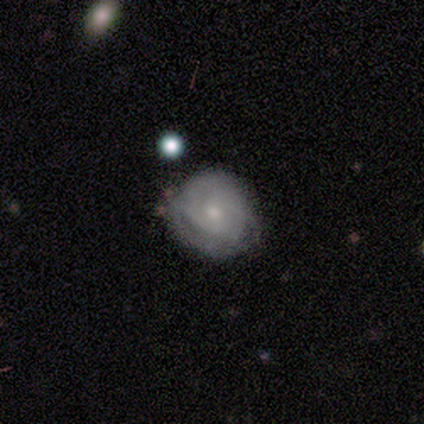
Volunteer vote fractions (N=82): This is possibly a featured or disk galaxy (60%). It is clearly not viewed edge-on (98%). Bar: likely no (73%). Spiral arm pattern: likely yes (69%). Spiral arm count: possibly can't tell (48%). Spiral winding: likely tight (73%). Central bulge: possibly small (50%). Merging: likely none (62%).